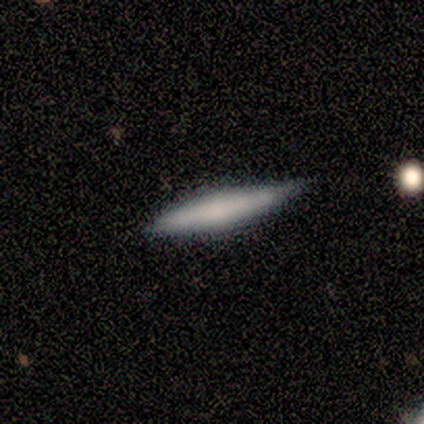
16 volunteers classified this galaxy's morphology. A featured or disk galaxy (50%) viewed edge-on (100%) with a rounded central bulge (50%).

Vote fractions:
- Smooth or featured? featured or disk: 50% / smooth: 44% / star or artifact: 6%
- Edge-on disk? yes: 100% / no: 0%
- Edge-on bulge? rounded: 50% / none: 38% / boxy: 12%
- Merging? none: 67% / minor disturbance: 33% / major disturbance: 0% / merger: 0%